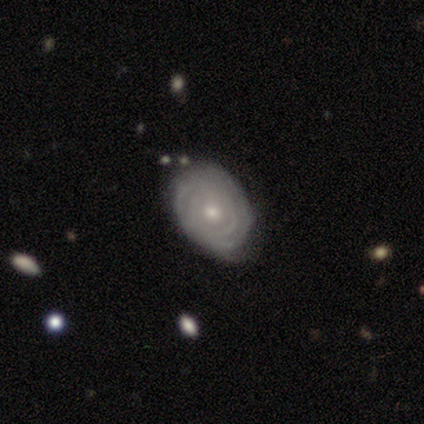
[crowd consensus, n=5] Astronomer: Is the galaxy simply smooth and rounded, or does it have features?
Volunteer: smooth — 60% (runner-up: featured or disk, 40%).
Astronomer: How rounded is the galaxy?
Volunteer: in between — 67%.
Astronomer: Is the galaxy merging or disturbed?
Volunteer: none — 60%.